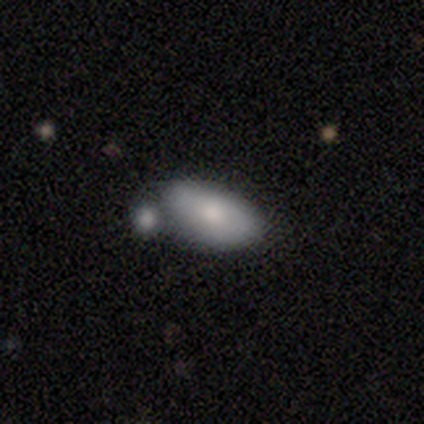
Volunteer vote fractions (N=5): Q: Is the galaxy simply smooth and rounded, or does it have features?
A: smooth — 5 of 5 (100%).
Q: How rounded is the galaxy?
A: in between — 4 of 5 (80%).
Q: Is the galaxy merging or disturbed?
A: none — 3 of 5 (60%).